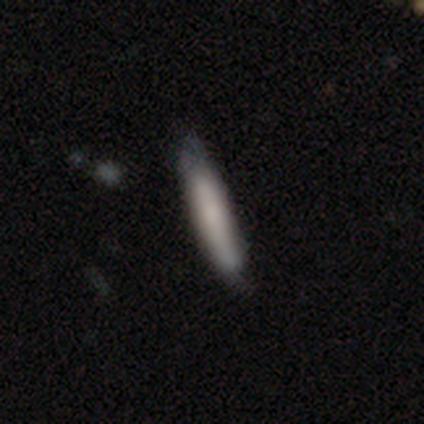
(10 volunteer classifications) This is clearly a smooth galaxy (100%). How rounded: likely cigar-shaped (70%). Merging: clearly none (80%).